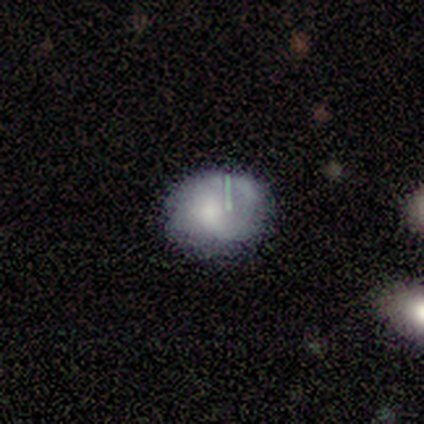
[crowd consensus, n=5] This is likely a smooth galaxy (60%). How rounded: clearly in between (100%). Merging: likely minor disturbance (60%).